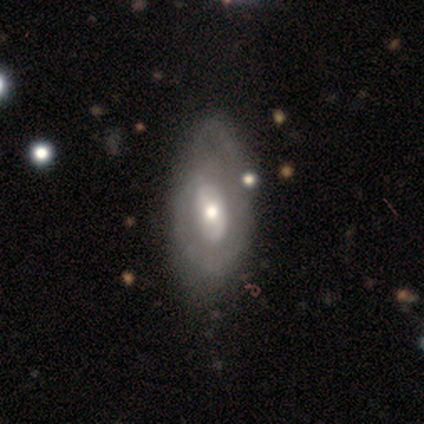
Smooth or featured? 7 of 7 (100%) said featured or disk. Edge-on disk? 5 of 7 (71%) said no. Bar? 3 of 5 (60%) said weak. Spiral arms? 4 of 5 (80%) said yes. Spiral winding? 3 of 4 (75%) said tight. Spiral arm count? 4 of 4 (100%) said 1. Bulge size? 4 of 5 (80%) said moderate. Merging? 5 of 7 (71%) said none.